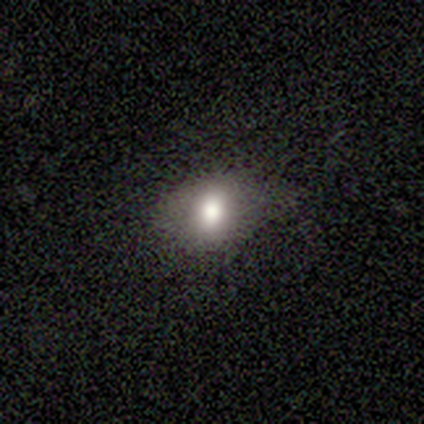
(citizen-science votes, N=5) Smooth or featured? 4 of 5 (80%) said smooth. How rounded? 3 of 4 (75%) said round. Merging? 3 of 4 (75%) said none.